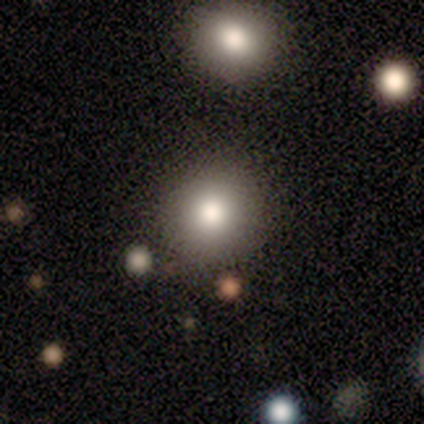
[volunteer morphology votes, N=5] Smooth or featured: smooth — 80% (star or artifact — 20%)
How rounded: round — 100%
Merging: none — 100%